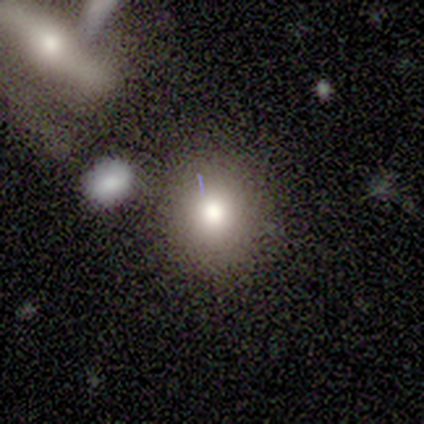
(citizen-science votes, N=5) Smooth or featured? 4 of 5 (80%) said smooth. How rounded? 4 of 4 (100%) said round. Merging? 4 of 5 (80%) said none.